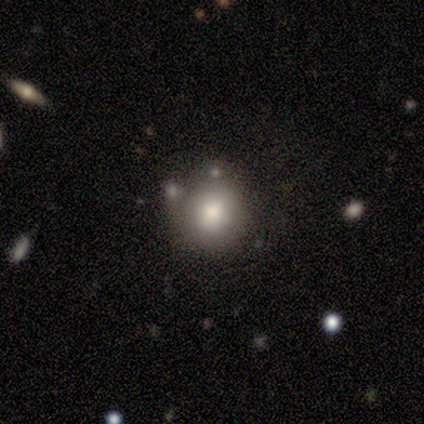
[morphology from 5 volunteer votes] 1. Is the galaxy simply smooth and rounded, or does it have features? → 80% smooth, 20% featured or disk, 0% star or artifact.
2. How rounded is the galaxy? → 100% round, 0% in between, 0% cigar-shaped.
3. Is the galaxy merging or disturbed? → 100% none, 0% minor disturbance, 0% major disturbance, 0% merger.